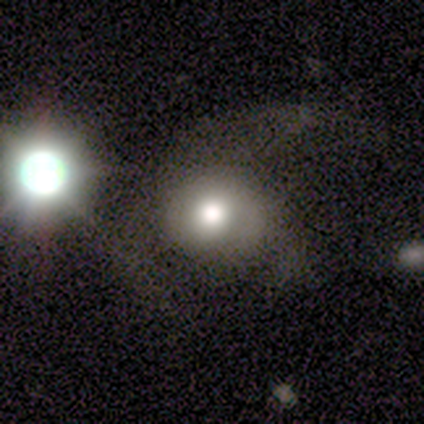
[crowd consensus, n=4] Q: Smooth or featured?
A: smooth (50%); runner-up: featured or disk (25%)
Q: How rounded?
A: round (50%); tied with: in between (50%)
Q: Merging?
A: major disturbance (67%); runner-up: none (33%)